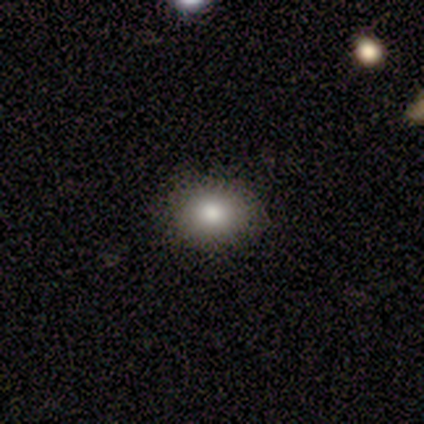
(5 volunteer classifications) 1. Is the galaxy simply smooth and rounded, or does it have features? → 80% smooth, 20% featured or disk, 0% star or artifact.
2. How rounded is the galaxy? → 75% round, 25% in between, 0% cigar-shaped.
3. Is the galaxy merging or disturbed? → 100% none, 0% minor disturbance, 0% major disturbance, 0% merger.